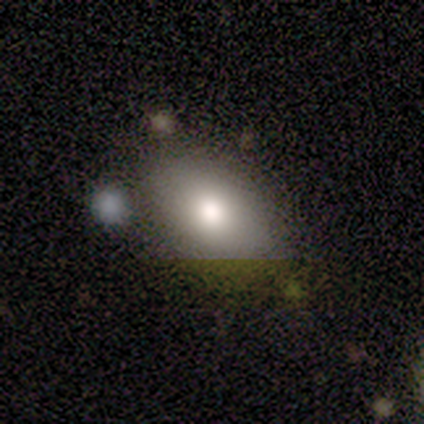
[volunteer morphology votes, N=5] type=smooth (80%); roundness=in between (75%); merging=none (60%).